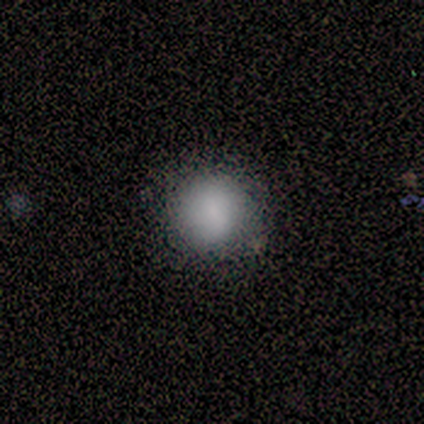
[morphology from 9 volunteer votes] A smooth galaxy with no disk features (89%) that is round (88%). Merging: none (88%).